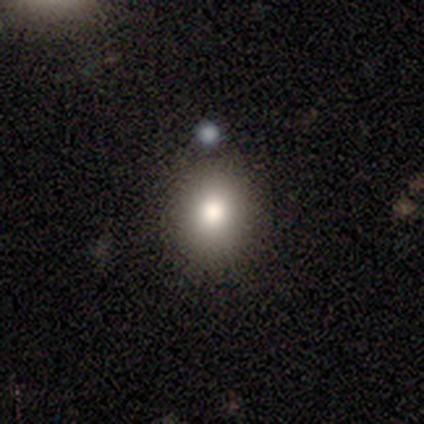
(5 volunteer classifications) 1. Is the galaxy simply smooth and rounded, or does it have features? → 80% smooth, 20% featured or disk, 0% star or artifact.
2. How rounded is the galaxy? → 75% round, 25% in between, 0% cigar-shaped.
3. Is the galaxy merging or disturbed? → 80% none, 20% merger, 0% minor disturbance, 0% major disturbance.